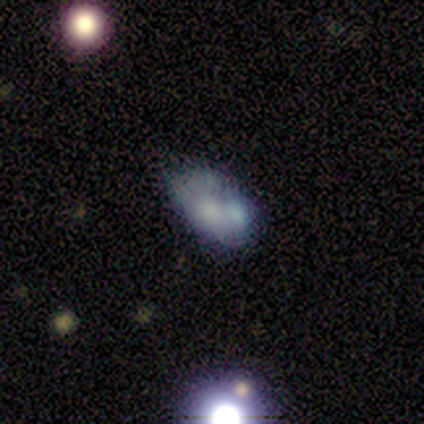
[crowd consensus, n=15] Smooth or featured?
  - smooth: 40% * (tied)
  - featured or disk: 40% * (tied)
  - star or artifact: 20%
How rounded?
  - in between: 100% *
  - round: 0%
  - cigar-shaped: 0%
Merging?
  - none: 33% * (tied)
  - minor disturbance: 33% * (tied)
  - merger: 33% * (tied)
  - major disturbance: 0%